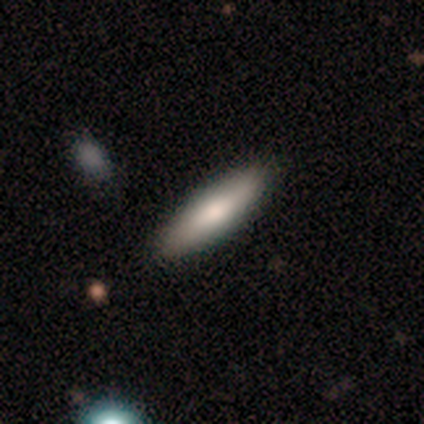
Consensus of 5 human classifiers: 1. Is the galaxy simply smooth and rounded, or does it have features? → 60% featured or disk, 40% smooth, 0% star or artifact.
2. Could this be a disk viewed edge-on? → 67% yes, 33% no.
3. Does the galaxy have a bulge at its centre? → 50% boxy (tied), 50% rounded (tied), 0% none.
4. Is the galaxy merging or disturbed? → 60% none, 40% minor disturbance, 0% major disturbance, 0% merger.